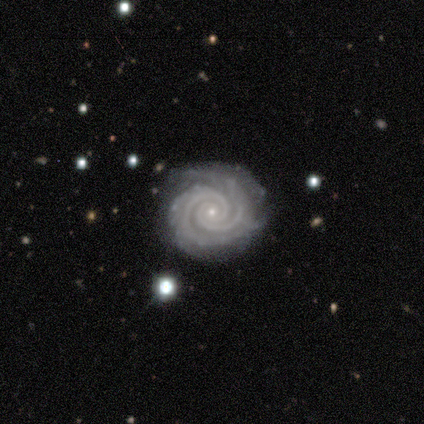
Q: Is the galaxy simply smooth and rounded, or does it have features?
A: featured or disk — 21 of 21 (100%).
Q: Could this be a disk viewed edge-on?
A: no — 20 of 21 (95%).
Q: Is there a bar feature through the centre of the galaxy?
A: no — 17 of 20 (85%).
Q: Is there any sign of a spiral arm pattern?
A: yes — 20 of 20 (100%).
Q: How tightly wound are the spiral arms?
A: tight — 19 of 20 (95%).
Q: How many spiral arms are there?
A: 2 — 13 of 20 (65%).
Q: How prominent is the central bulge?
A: small — 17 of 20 (85%).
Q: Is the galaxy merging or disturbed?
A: none — 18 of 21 (86%).